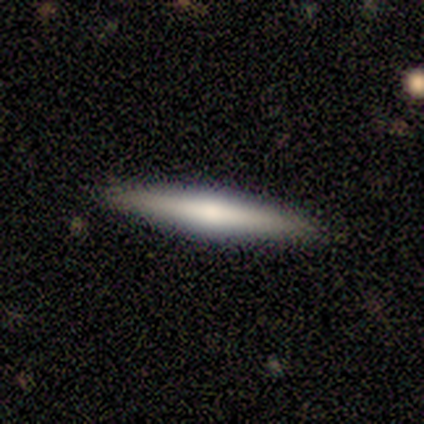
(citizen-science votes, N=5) Overall: featured or disk (60%; smooth 40%). Edge-on disk: yes (100%). Edge-on bulge: rounded (100%). Merging: none (80%).